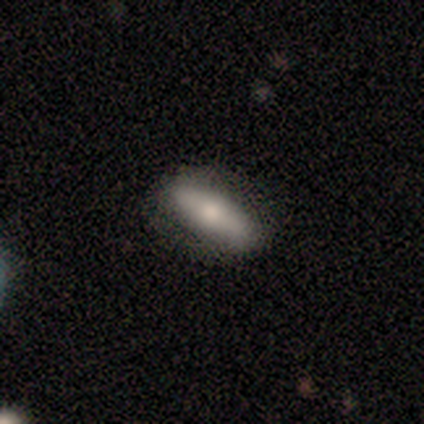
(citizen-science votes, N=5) Morphology: type=featured or disk (60%); edge-on=no (100%); bar=no (67%); spiral arms=yes (67%); winding=medium (50%, tied with loose); arm count=2 (100%); bulge=moderate (67%); merging=none (100%).